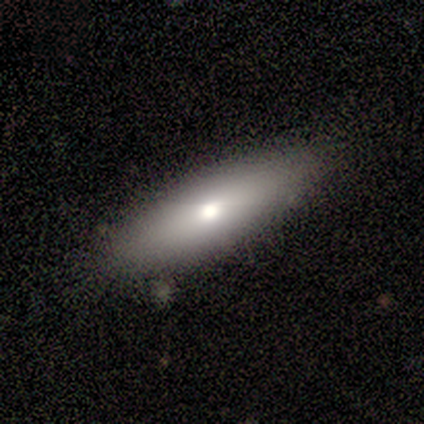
A smooth galaxy with no disk features (67%) that is in between round and cigar-shaped (75%). Merging: none (83%).